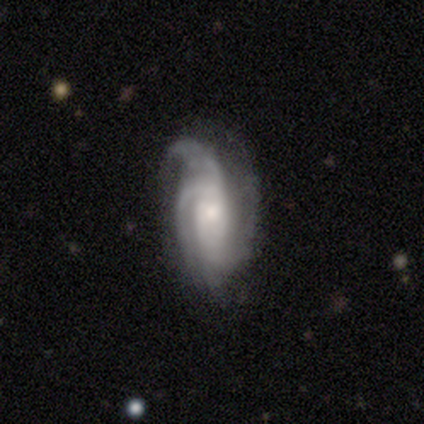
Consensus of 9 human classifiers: Smooth or featured: featured or disk — 100%
Edge-on disk: no — 100%
Bar: no — 67% (strong — 33%)
Spiral arms: yes — 100%
Spiral winding: tight — 44% (tied with medium — 44%)
Spiral arm count: 3 — 56% (2 — 22%)
Bulge size: moderate — 56% (small — 33%)
Merging: none — 67% (major disturbance — 22%)